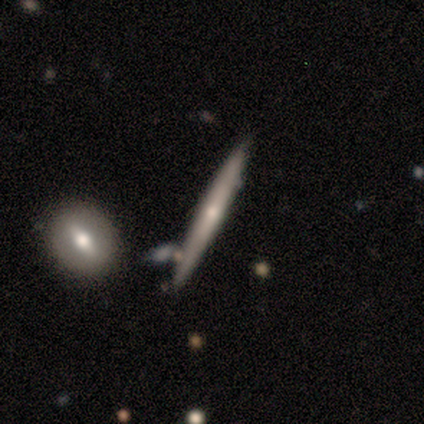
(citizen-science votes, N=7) A featured or disk galaxy (86%) viewed edge-on (67%) with no central bulge (50%, tied with rounded). Merging: none (71%).